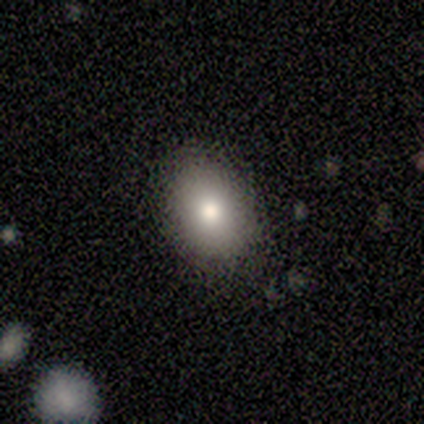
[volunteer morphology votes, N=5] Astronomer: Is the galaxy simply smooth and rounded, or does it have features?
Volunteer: smooth — 80%.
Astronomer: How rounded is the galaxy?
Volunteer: round — 50%.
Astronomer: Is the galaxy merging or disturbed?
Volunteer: none — 50%.